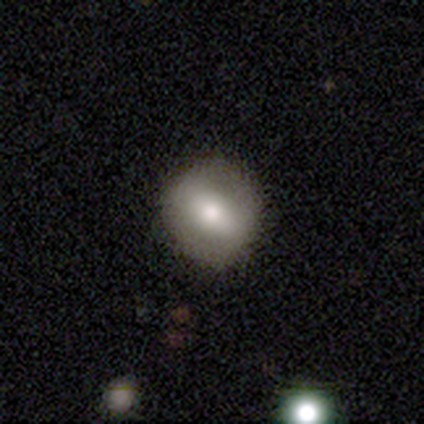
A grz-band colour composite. It shows a smooth galaxy with no disk features (100%) that is round (100%). Merging: none (100%).